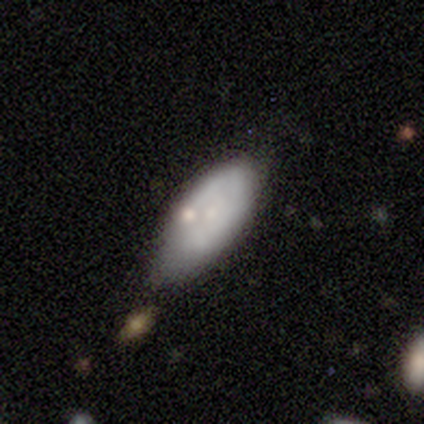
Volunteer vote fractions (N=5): This appears to be a smooth galaxy with no disk features (60%) that is in between round and cigar-shaped (67%). Merging: none (40%, tied with minor disturbance).